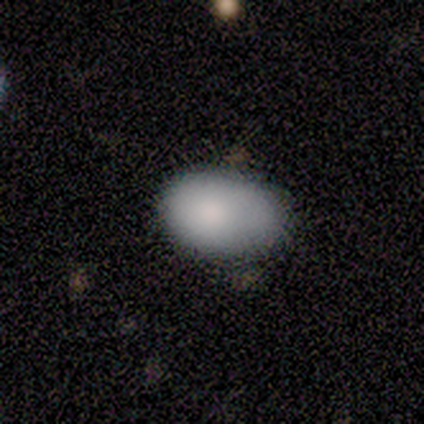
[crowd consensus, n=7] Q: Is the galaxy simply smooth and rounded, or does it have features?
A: smooth — 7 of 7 (100%).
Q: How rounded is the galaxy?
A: in between — 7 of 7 (100%).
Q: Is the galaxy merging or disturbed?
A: minor disturbance — 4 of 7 (57%).